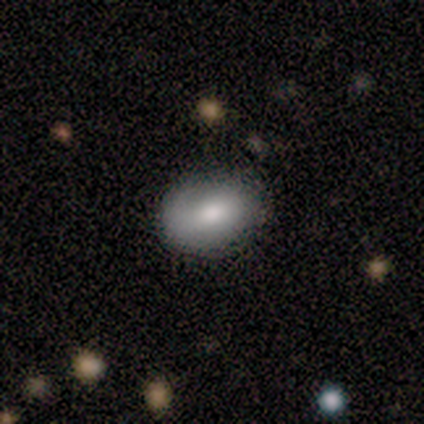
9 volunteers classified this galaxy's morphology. Smooth or featured? 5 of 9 (56%) said smooth. How rounded? 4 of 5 (80%) said in between. Merging? 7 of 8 (88%) said none.